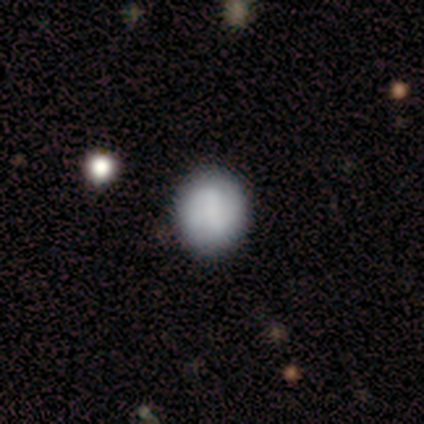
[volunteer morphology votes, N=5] smooth 80%, featured or disk 20%, star or artifact 0%. Down the decision tree: how rounded — round (75%); merging — none (100%).